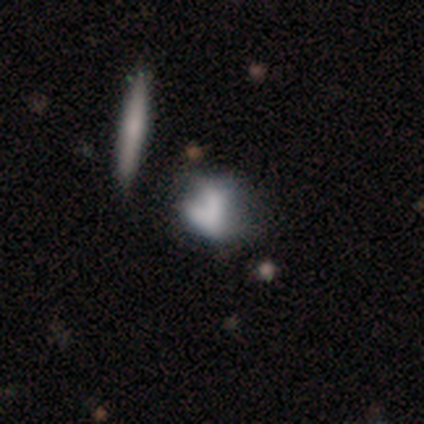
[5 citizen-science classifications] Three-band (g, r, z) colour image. It shows a smooth galaxy with no disk features (60%) that is in between round and cigar-shaped (67%). Merging: minor disturbance (75%).